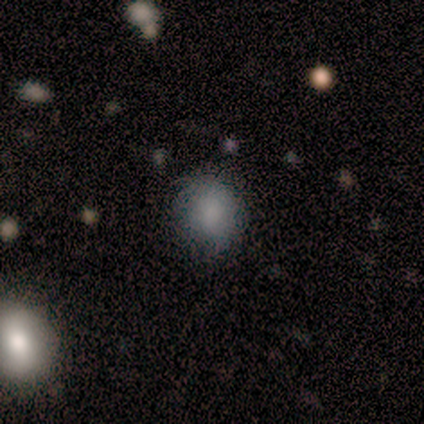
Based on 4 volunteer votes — A smooth galaxy with no disk features (100%) that is round (75%).

Vote fractions:
- Smooth or featured? smooth: 100% / featured or disk: 0% / star or artifact: 0%
- How rounded? round: 75% / in between: 25% / cigar-shaped: 0%
- Merging? none: 100% / minor disturbance: 0% / major disturbance: 0% / merger: 0%